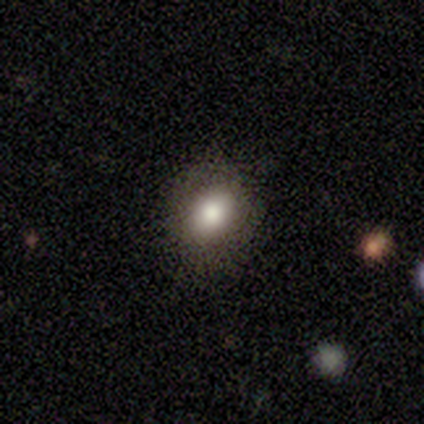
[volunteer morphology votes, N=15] This appears to be a smooth galaxy with no disk features (80%) that is round (50%, tied with in between). Merging: none (87%).